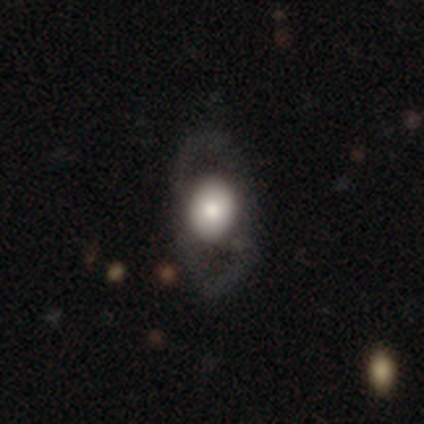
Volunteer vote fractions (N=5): A smooth galaxy with no disk features (60%) that is in between round and cigar-shaped (67%).

Vote fractions:
- Smooth or featured? smooth: 60% / featured or disk: 40% / star or artifact: 0%
- How rounded? in between: 67% / round: 33% / cigar-shaped: 0%
- Merging? none: 60% / minor disturbance: 20% / major disturbance: 20% / merger: 0%